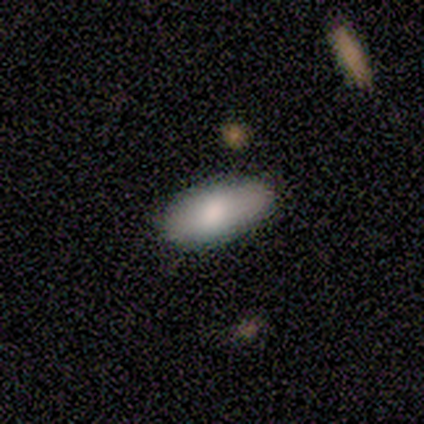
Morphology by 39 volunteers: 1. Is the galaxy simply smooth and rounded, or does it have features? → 82% smooth, 13% featured or disk, 5% star or artifact.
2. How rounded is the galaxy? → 97% in between, 3% cigar-shaped, 0% round.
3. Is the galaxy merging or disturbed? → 46% none, 11% merger, 3% minor disturbance, 3% major disturbance.